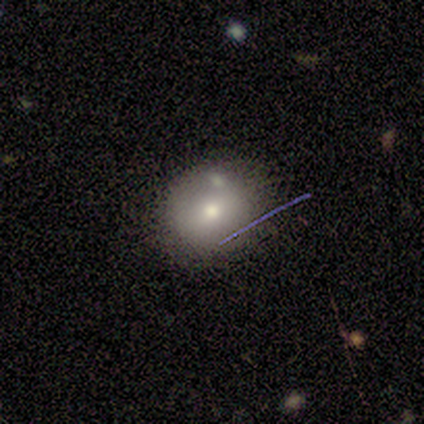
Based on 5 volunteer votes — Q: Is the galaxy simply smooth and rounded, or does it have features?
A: smooth — 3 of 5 (60%).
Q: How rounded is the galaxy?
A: round — 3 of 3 (100%).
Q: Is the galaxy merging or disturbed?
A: none — 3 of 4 (75%).